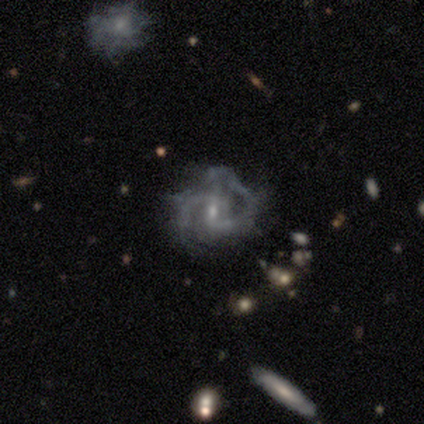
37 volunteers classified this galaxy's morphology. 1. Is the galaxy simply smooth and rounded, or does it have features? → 86% featured or disk, 11% smooth, 3% star or artifact.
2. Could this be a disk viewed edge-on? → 100% no, 0% yes.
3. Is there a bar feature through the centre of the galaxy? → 56% weak, 31% no, 12% strong.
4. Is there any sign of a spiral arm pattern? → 100% yes, 0% no.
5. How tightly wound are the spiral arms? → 50% medium, 28% tight, 22% loose.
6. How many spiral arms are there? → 66% 2, 19% can't tell, 16% 3, 0% 1, 0% 4, 0% more than 4.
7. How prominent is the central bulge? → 69% small, 28% moderate, 3% none, 0% dominant, 0% large.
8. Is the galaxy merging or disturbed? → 39% none, 33% major disturbance, 25% minor disturbance, 3% merger.